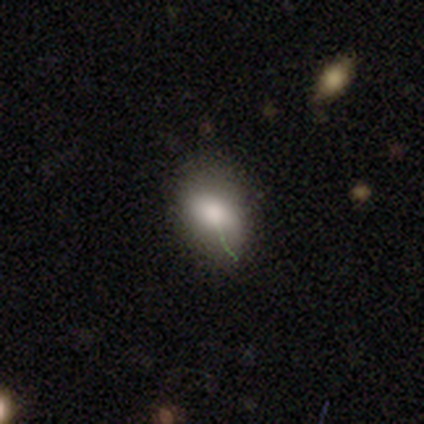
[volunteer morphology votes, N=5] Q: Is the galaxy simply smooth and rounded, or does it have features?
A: smooth — 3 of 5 (60%).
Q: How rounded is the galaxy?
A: in between — 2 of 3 (67%).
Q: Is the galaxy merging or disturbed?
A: none — 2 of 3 (67%).